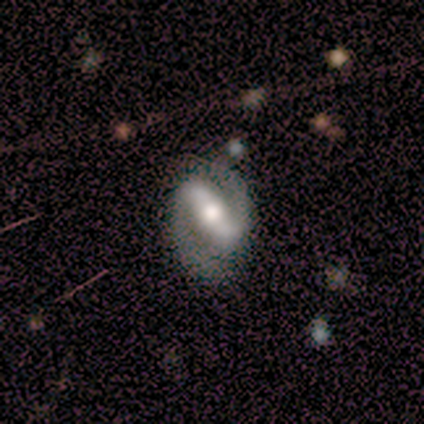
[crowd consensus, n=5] Overall: featured or disk (80%). Edge-on disk: no (100%). Bar: strong (75%). Spiral arms: yes (100%). Spiral arm count: 2 (100%). Spiral winding: tight (50%; medium 25%). Bulge size: moderate (50%; large 25%). Merging: none (75%).